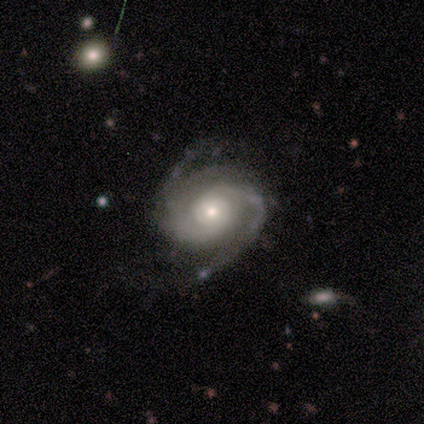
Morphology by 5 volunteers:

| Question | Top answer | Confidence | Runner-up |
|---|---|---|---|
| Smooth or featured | featured or disk | 100% | — |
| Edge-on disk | no | 100% | — |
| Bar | no | 80% | weak (20%) |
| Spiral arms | yes | 80% | no (20%) |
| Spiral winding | tight | 75% | loose (25%) |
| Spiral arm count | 2 | 100% | — |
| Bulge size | moderate | 60% | small (40%) |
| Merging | none | 80% | minor disturbance (20%) |